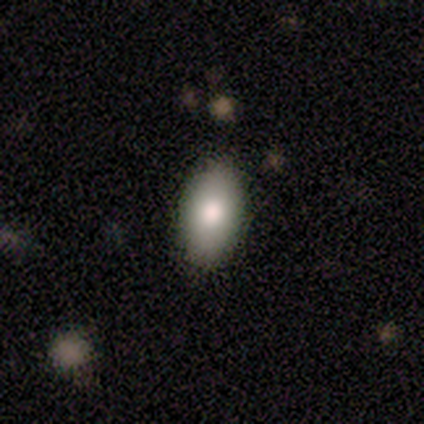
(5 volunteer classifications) smooth 60%, featured or disk 40%, star or artifact 0%. Down the decision tree: how rounded — in between (100%); merging — none (100%).